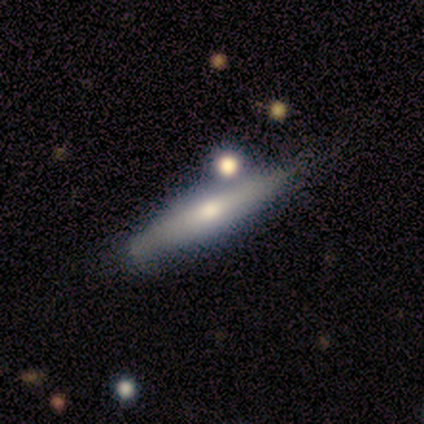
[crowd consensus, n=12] Smooth or featured?
  - featured or disk: 75% *
  - smooth: 17%
  - star or artifact: 8%
Edge-on disk?
  - yes: 100% *
  - no: 0%
Edge-on bulge?
  - rounded: 78% *
  - boxy: 22%
  - none: 0%
Merging?
  - none: 64% *
  - minor disturbance: 18%
  - major disturbance: 9%
  - merger: 9%